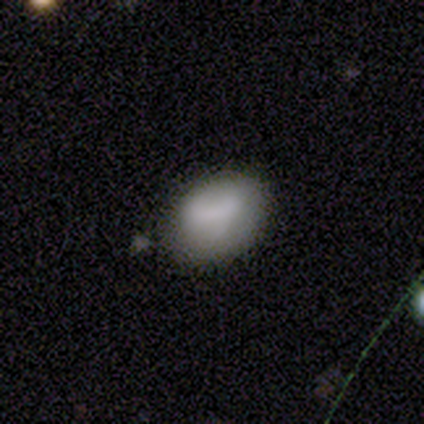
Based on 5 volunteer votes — Q: Smooth or featured?
A: smooth (80%); runner-up: featured or disk (20%)
Q: How rounded?
A: in between (75%); runner-up: round (25%)
Q: Merging?
A: none (80%); runner-up: merger (20%)